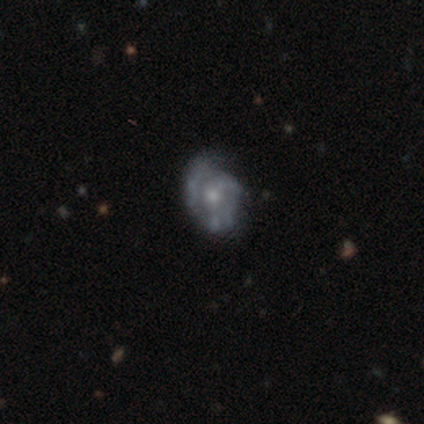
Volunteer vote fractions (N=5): Overall: featured or disk (80%). Edge-on disk: no (75%). Bar: no (100%). Spiral arms: no (67%; yes 33%). Bulge size: moderate (100%). Merging: none (50%; minor disturbance 25%).